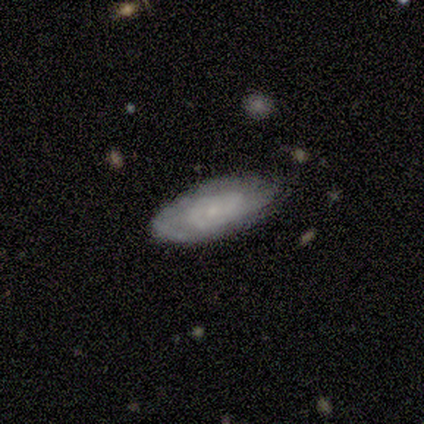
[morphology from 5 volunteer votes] Volunteers were most divided on "spiral arm count" (2-way tie): 2: 40%, can't tell: 40%, 1: 20%, 3: 0%, 4: 0%, more than 4: 0%. More confident: smooth or featured — featured or disk (100%); edge-on disk — no (100%); spiral arms — yes (100%); merging — none (80%); bar — weak (60%); spiral winding — tight (60%); bulge size — small (60%).